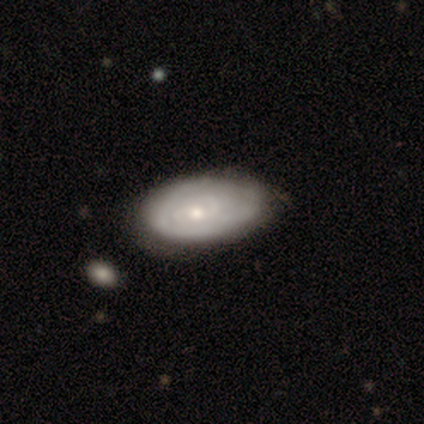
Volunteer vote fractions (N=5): This appears to be a featured or disk galaxy (60%) with no bar (100%), 2 (100%) tight (50%, tied with medium) spiral arms (67%) and a small central bulge (67%). Merging: none (40%, tied with minor disturbance).